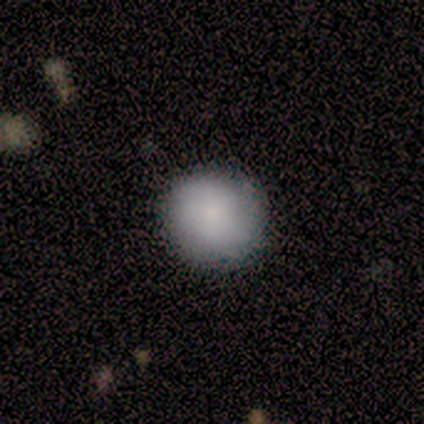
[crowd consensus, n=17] Morphology: type=smooth (76%); roundness=round (100%); merging=none (81%).